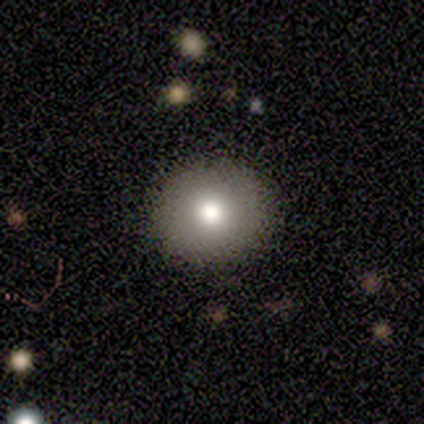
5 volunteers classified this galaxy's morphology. Q: Smooth or featured?
A: smooth (80%); runner-up: star or artifact (20%)
Q: How rounded?
A: round (100%)
Q: Merging?
A: none (100%)